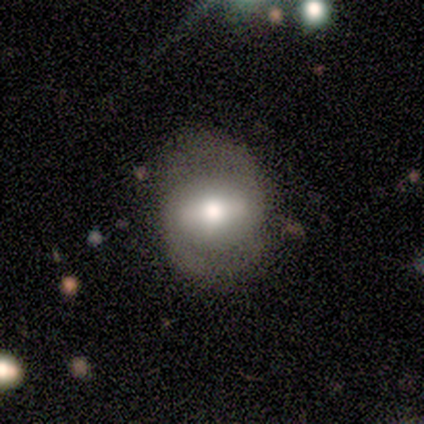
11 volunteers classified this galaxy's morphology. Smooth or featured?
  - featured or disk: 55% *
  - smooth: 36%
  - star or artifact: 9%
Edge-on disk?
  - no: 83% *
  - yes: 17%
Bar?
  - strong: 80% *
  - no: 20%
  - weak: 0%
Spiral arms?
  - yes: 60% *
  - no: 40%
Spiral winding?
  - tight: 33% * (tied)
  - medium: 33% * (tied)
  - loose: 33% * (tied)
Spiral arm count?
  - 2: 100% *
  - 1: 0%
  - 3: 0%
  - 4: 0%
  - more than 4: 0%
  - can't tell: 0%
Bulge size?
  - large: 60% *
  - moderate: 40%
  - dominant: 0%
  - small: 0%
  - none: 0%
Merging?
  - none: 80% *
  - minor disturbance: 10%
  - major disturbance: 10%
  - merger: 0%